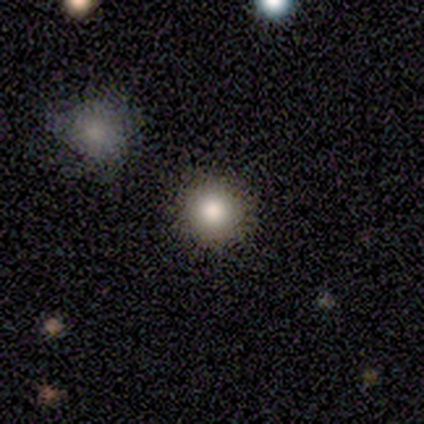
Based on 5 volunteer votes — Overall: smooth (100%). How rounded: round (80%). Merging: none (100%).